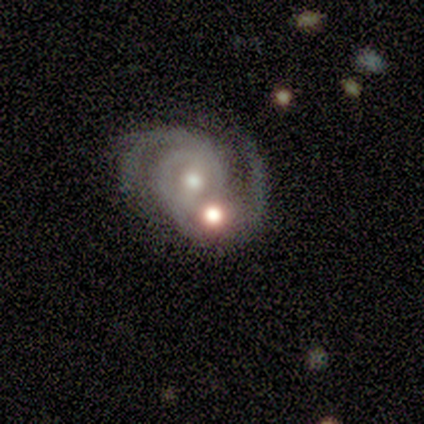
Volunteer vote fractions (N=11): Smooth or featured? featured or disk (91%)
Edge-on disk? no (100%)
Bar? strong (40%, tied with weak)
Spiral arms? yes (100%)
Spiral winding? medium (50%)
Spiral arm count? 2 (100%)
Bulge size? moderate (70%)
Merging? merger (45%)